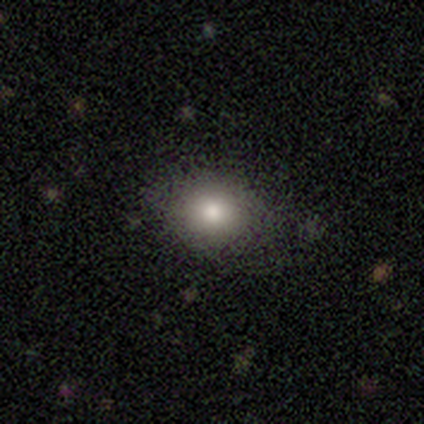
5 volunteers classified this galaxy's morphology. Volunteers were most divided on "how rounded" (2-way tie): round: 50%, in between: 50%, cigar-shaped: 0%. More confident: smooth or featured — smooth (80%); merging — none (60%).